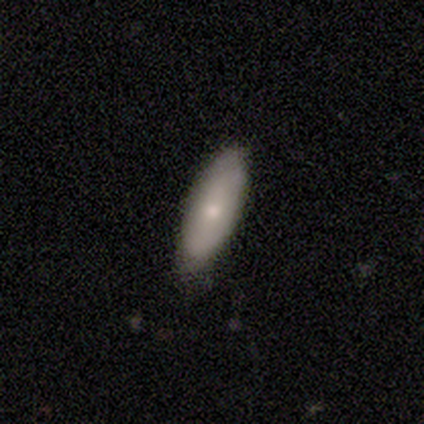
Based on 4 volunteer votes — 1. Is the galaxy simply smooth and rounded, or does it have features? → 100% smooth, 0% featured or disk, 0% star or artifact.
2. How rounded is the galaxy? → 50% in between (tied), 50% cigar-shaped (tied), 0% round.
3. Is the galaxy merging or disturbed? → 50% none (tied), 50% minor disturbance (tied), 0% major disturbance, 0% merger.